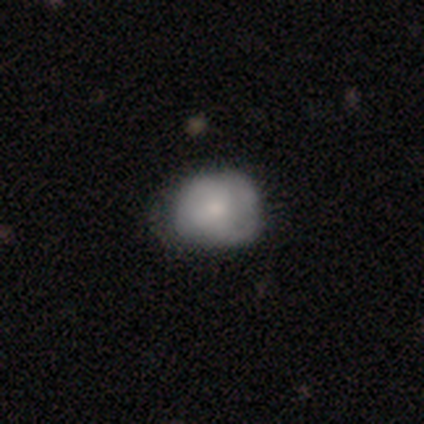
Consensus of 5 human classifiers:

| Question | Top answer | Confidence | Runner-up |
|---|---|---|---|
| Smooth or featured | smooth | 80% | featured or disk (20%) |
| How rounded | round | 50% | tied: in between (50%) |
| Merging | none | 40% | tied: major disturbance (40%) |